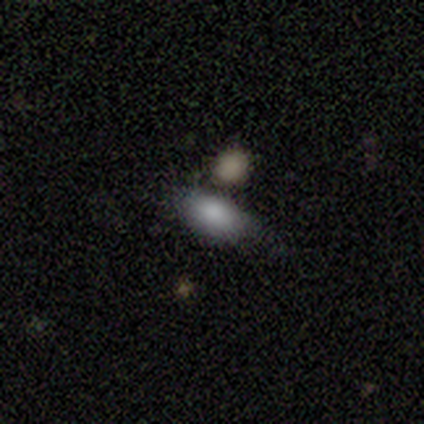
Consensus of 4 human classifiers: Q: Smooth or featured?
A: smooth (75%); runner-up: star or artifact (25%)
Q: How rounded?
A: in between (100%)
Q: Merging?
A: none (33%); tied with: minor disturbance (33%); major disturbance (33%)